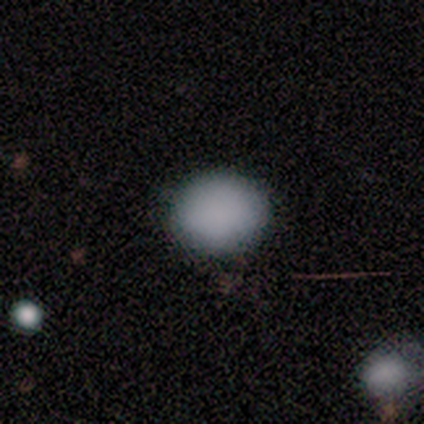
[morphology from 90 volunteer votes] Smooth or featured: smooth — 90% (star or artifact — 6%)
How rounded: round — 68% (in between — 32%)
Merging: none — 85% (minor disturbance — 13%)